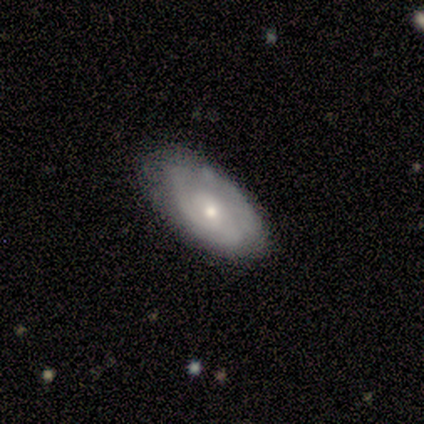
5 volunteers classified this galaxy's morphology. This appears to be a featured or disk galaxy (60%) with no bar (100%), 1 (33%, tied with 3 and can't tell) tight (33%, tied with medium and loose) spiral arms (100%) and a moderate central bulge (67%). Merging: none (60%).